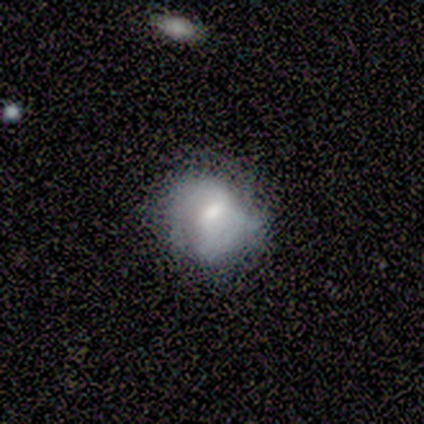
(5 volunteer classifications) Smooth or featured?
  - smooth: 40% * (tied)
  - featured or disk: 40% * (tied)
  - star or artifact: 20%
How rounded?
  - round: 100% *
  - in between: 0%
  - cigar-shaped: 0%
Merging?
  - none: 50% *
  - minor disturbance: 25%
  - major disturbance: 25%
  - merger: 0%